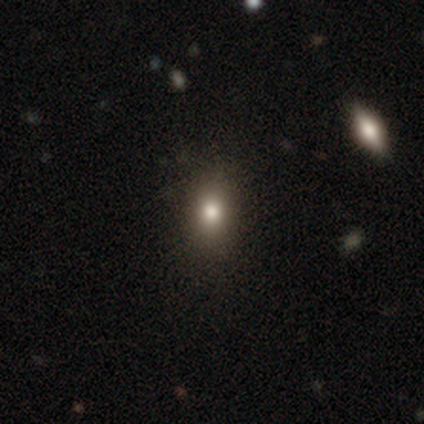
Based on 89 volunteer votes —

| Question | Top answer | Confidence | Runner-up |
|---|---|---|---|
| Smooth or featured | smooth | 67% | star or artifact (27%) |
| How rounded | in between | 58% | round (38%) |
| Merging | none | 89% | minor disturbance (9%) |